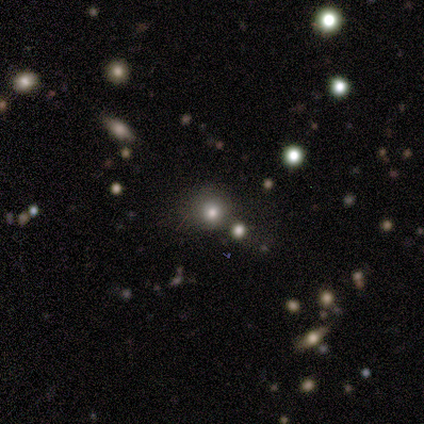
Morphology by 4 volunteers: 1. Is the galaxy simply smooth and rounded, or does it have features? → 50% smooth, 25% featured or disk, 25% star or artifact.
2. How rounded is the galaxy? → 100% round, 0% in between, 0% cigar-shaped.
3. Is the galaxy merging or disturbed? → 100% none, 0% minor disturbance, 0% major disturbance, 0% merger.